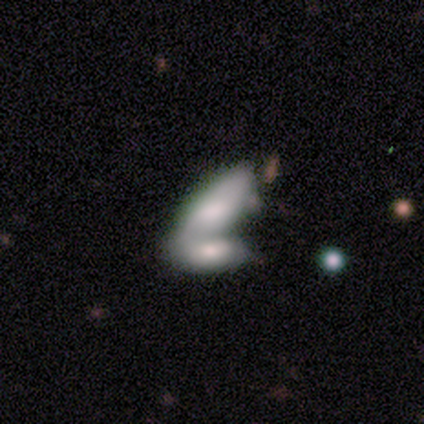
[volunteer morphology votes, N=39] Volunteers were most divided on "smooth or featured": smooth: 64%, featured or disk: 28%, star or artifact: 8%. More confident: how rounded — in between (84%); merging — merger (78%).